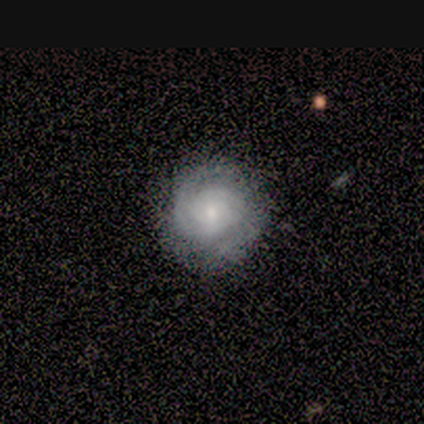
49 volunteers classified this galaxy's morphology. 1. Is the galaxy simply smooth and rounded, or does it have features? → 73% featured or disk, 24% smooth, 2% star or artifact.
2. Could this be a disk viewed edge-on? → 94% no, 6% yes.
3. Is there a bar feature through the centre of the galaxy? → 76% no, 24% weak, 0% strong.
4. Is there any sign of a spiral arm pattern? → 91% yes, 9% no.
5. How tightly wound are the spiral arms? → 84% tight, 10% medium, 6% loose.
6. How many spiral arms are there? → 39% can't tell, 35% 2, 13% 1, 13% 3, 0% 4, 0% more than 4.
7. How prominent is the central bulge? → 65% small, 32% moderate, 3% large, 0% dominant, 0% none.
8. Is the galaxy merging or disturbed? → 83% none, 15% minor disturbance, 2% major disturbance, 0% merger.